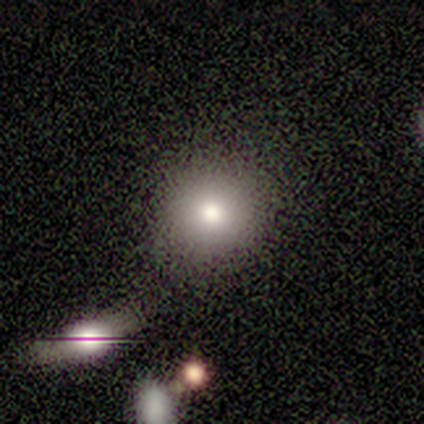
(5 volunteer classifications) Overall: smooth (100%). How rounded: round (100%). Merging: none (80%).